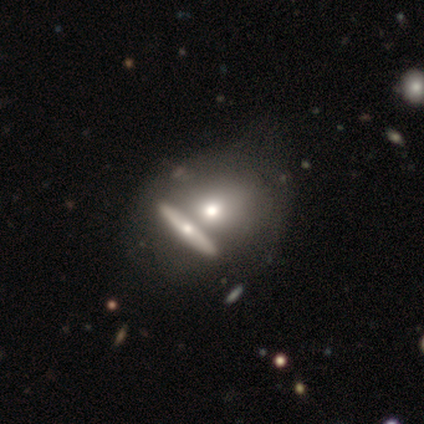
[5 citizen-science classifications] This appears to be a smooth galaxy with no disk features (60%) that is in between round and cigar-shaped (100%). Merging: minor disturbance (50%).